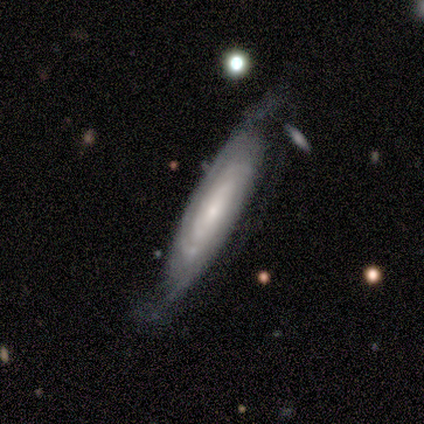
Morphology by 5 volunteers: type=featured or disk (80%); edge-on=no (75%); bar=strong (33%, tied with weak and no); spiral arms=yes (67%); winding=tight (50%, tied with loose); arm count=2 (50%, tied with can't tell); bulge=small (67%); merging=none (80%).